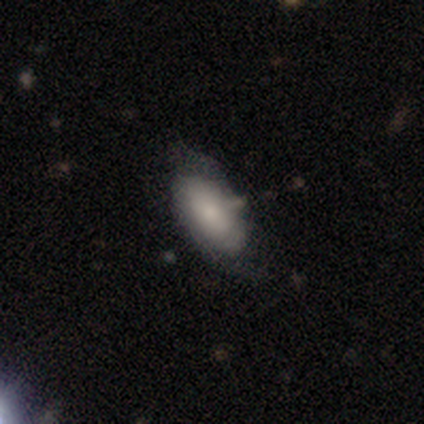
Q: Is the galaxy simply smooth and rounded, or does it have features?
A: smooth — 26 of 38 (68%).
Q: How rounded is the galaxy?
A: in between — 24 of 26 (92%).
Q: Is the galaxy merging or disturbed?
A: none — 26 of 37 (70%).